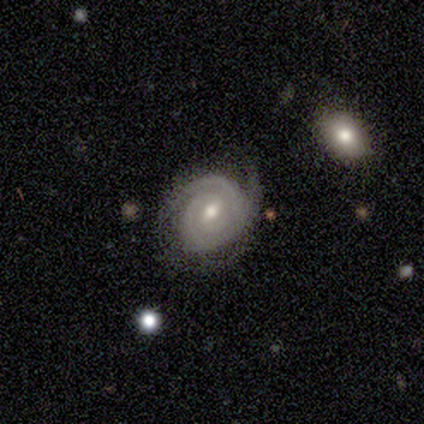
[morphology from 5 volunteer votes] smooth-or-featured: featured or disk: 100% | smooth: 0% | star or artifact: 0%
  disk-edge-on: no: 100% | yes: 0%
    bar: no: 60% | strong: 20% | weak: 20%
    has-spiral-arms: yes: 80% | no: 20%
      spiral-winding: tight: 75% | medium: 25% | loose: 0%
      spiral-arm-count: 2: 50% | 3: 25% | can't tell: 25% | 1: 0% | 4: 0% | more than 4: 0%
    bulge-size: moderate: 60% | small: 20% | none: 20% | dominant: 0% | large: 0%
  merging: none: 60% | major disturbance: 40% | minor disturbance: 0% | merger: 0%